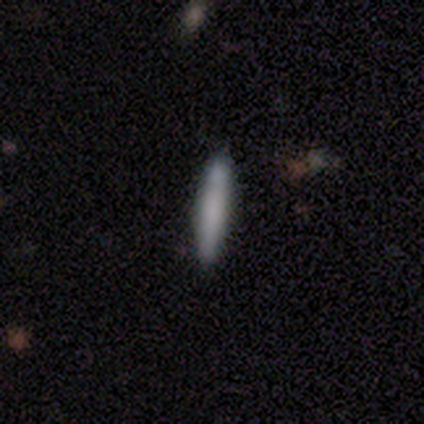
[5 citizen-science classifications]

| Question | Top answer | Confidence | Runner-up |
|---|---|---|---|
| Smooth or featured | smooth | 60% | featured or disk (40%) |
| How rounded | cigar-shaped | 100% | — |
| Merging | none | 100% | — |